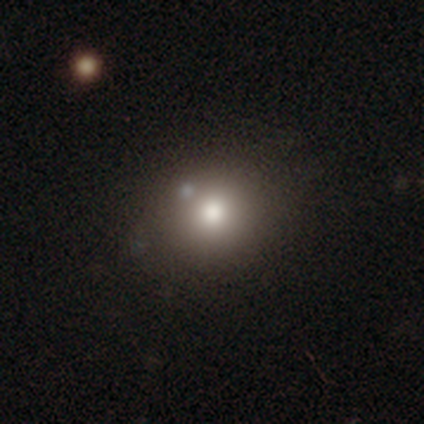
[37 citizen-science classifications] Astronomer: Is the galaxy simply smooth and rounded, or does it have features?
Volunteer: smooth — 65%.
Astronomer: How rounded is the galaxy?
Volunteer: round — 75%.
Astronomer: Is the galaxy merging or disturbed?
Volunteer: none — 67%.